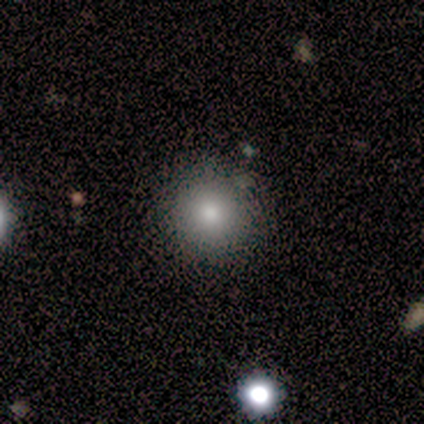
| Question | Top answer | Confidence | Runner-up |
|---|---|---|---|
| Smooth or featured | smooth | 60% | featured or disk (20%) |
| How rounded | round | 100% | — |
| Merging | none | 100% | — |